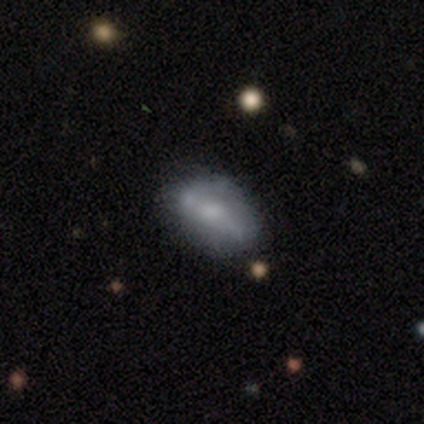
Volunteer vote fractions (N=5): smooth 100%, featured or disk 0%, star or artifact 0%. Down the decision tree: how rounded — in between (100%); merging — none (60%).